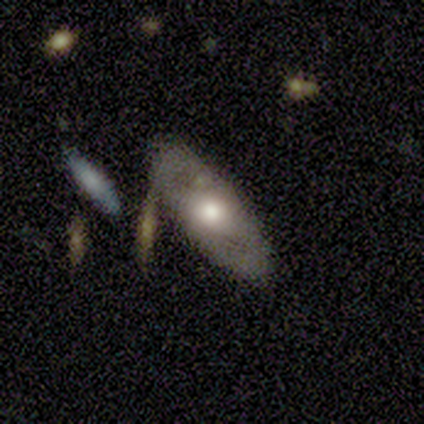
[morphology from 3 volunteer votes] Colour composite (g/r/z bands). It shows a featured or disk galaxy (67%) with no bar (100%), no spiral arms (100%) and a moderate central bulge (100%). Merging: none (50%, tied with minor disturbance).